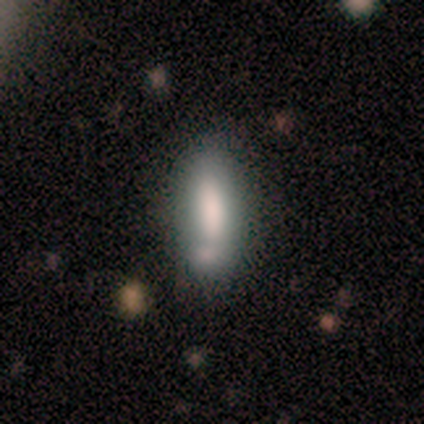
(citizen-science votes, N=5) Volunteers were most divided on "bar" (2-way tie): strong: 50%, no: 50%, weak: 0%. More confident: spiral arms — no (100%); bulge size — large (100%); merging — none (100%); edge-on disk — no (67%); smooth or featured — featured or disk (60%).